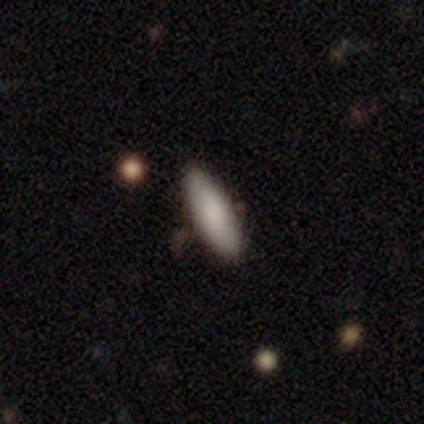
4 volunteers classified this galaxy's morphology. Smooth or featured? 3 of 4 (75%) said smooth. How rounded? 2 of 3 (67%) said in between. Merging? 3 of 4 (75%) said none.